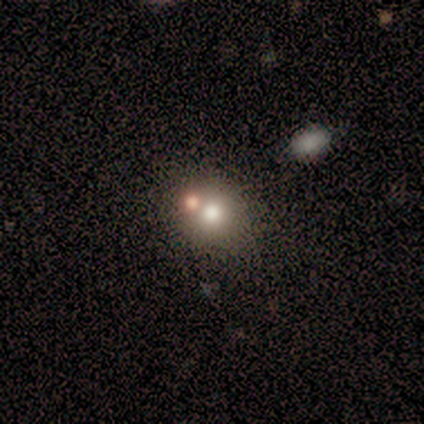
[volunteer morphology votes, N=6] Smooth or featured? 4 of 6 (67%) said smooth. How rounded? 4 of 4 (100%) said round. Merging? 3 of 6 (50%) said none.